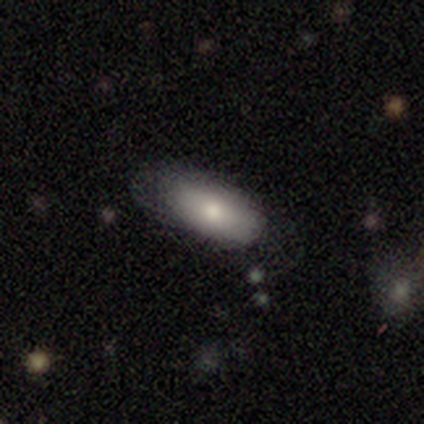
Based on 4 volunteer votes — Smooth or featured? smooth (75%)
How rounded? in between (100%)
Merging? minor disturbance (50%)